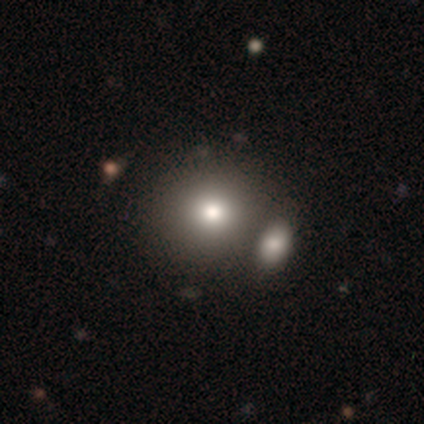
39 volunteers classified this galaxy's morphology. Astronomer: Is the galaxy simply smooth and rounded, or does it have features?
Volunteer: smooth — 79%.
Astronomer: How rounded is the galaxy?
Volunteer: round — 94%.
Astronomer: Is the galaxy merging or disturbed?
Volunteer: none — 49% (runner-up: merger, 34%).